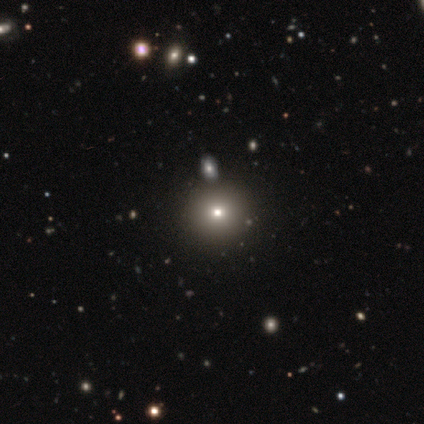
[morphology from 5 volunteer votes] Overall: star or artifact (60%; smooth 40%).